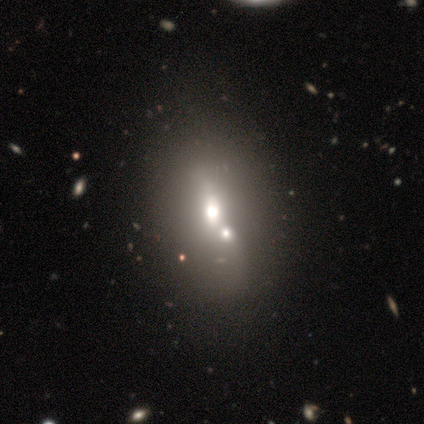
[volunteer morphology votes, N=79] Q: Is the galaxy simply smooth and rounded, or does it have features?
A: smooth — 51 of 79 (65%).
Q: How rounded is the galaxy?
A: in between — 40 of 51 (78%).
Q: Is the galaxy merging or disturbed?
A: merger — 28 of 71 (39%).